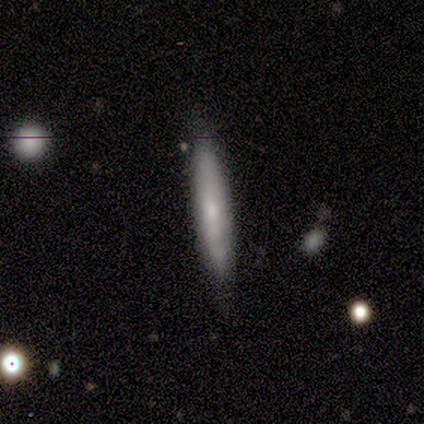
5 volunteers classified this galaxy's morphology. smooth-or-featured: featured or disk: 60% | smooth: 40% | star or artifact: 0%
  disk-edge-on: yes: 100% | no: 0%
    edge-on-bulge: rounded: 100% | boxy: 0% | none: 0%
  merging: none: 80% | major disturbance: 20% | minor disturbance: 0% | merger: 0%